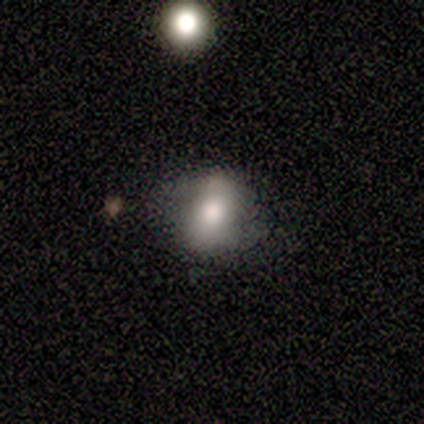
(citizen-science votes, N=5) smooth_or_featured: smooth (p=0.40) [tied with: featured or disk p=0.40]
how_rounded: round (p=1.00)
merging: none (p=1.00)